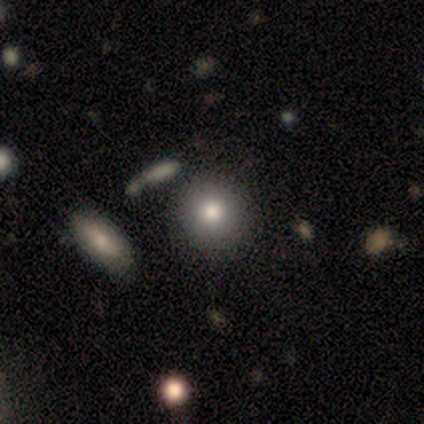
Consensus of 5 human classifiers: Morphology: type=smooth (60%); roundness=round (100%); merging=none (75%).